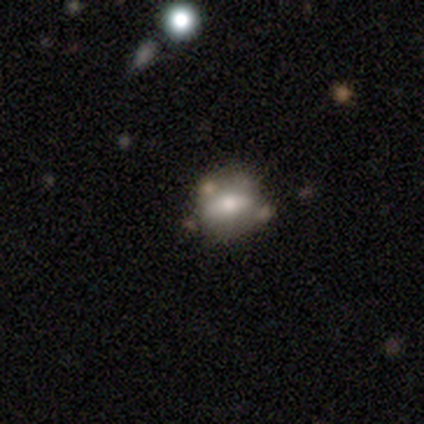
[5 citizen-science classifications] This appears to be a smooth galaxy with no disk features (60%) that is round (67%). Merging: none (80%).